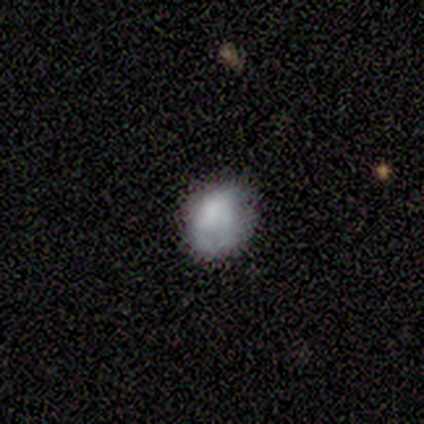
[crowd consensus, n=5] smooth_or_featured: smooth (p=0.60) [alt: featured or disk p=0.20]
how_rounded: in between (p=0.67) [alt: round p=0.33]
merging: none (p=0.75) [alt: minor disturbance p=0.25]